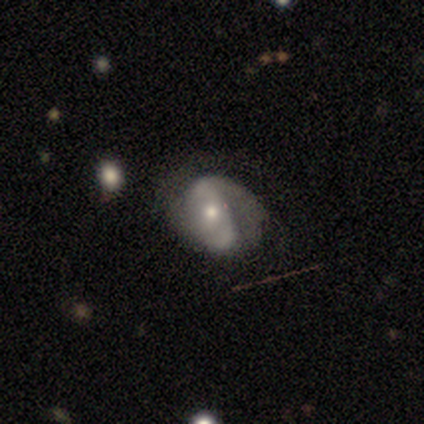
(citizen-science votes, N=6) featured or disk 83%, smooth 17%, star or artifact 0%. Down the decision tree: edge-on disk — no (100%); bar — no (60%); spiral arms — yes (100%); spiral arm count — 1 (40%, tied with 2); spiral winding — medium (40%, tied with loose); bulge size — small (60%); merging — none (83%).